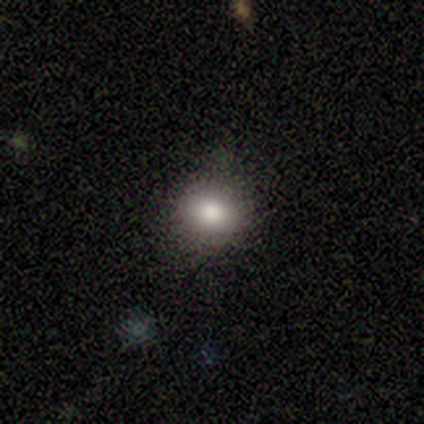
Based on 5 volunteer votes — Volunteers were most divided on "how rounded": round: 60%, in between: 40%, cigar-shaped: 0%. More confident: smooth or featured — smooth (100%); merging — none (100%).